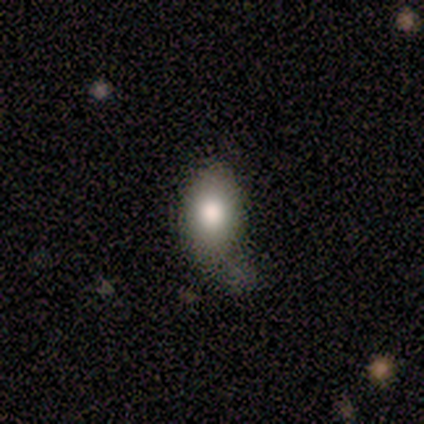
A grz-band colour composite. It shows a smooth galaxy with no disk features (86%) that is in between round and cigar-shaped (83%). Merging: none (86%).